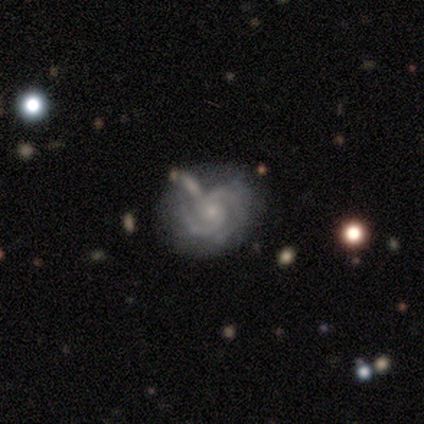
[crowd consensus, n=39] Smooth or featured? featured or disk (90%)
Edge-on disk? no (100%)
Bar? no (80%)
Spiral arms? yes (100%)
Spiral winding? tight (49%)
Spiral arm count? 2 (89%)
Bulge size? small (80%)
Merging? none (39%)